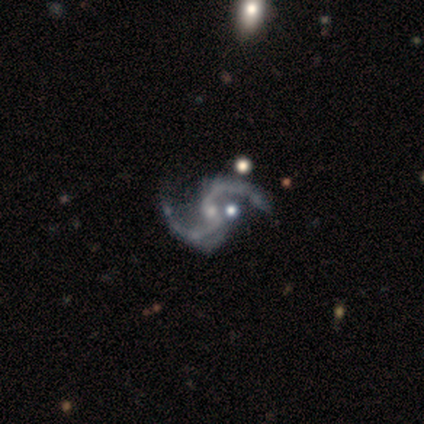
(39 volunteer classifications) This appears to be a featured or disk galaxy (97%) with no bar (53%), 2 (97%) loose (66%) spiral arms (100%) and a small central bulge (82%). Merging: none (63%).